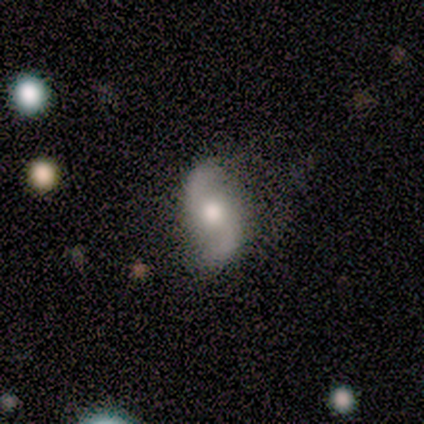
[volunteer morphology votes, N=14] A featured or disk galaxy (79%) with no bar (70%), 2 (90%) loose (80%) spiral arms (100%) and a moderate central bulge (70%). Merging: none (46%, tied with minor disturbance).